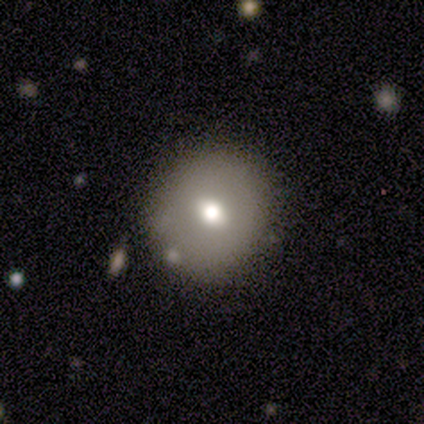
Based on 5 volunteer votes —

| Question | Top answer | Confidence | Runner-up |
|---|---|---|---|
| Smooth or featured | smooth | 80% | star or artifact (20%) |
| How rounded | round | 100% | — |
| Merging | none | 100% | — |